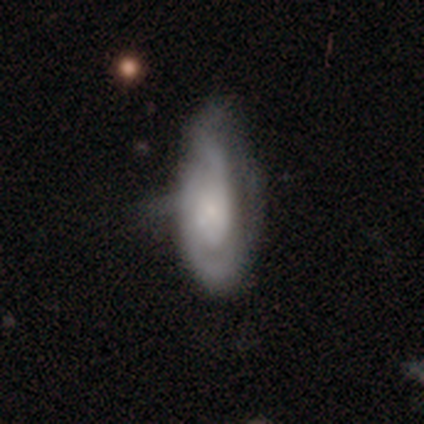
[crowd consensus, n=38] This appears to be a featured or disk galaxy (61%) with no bar (71%), 2 (65%) medium (55%) spiral arms (95%) and a small central bulge (71%). Merging: minor disturbance (49%).